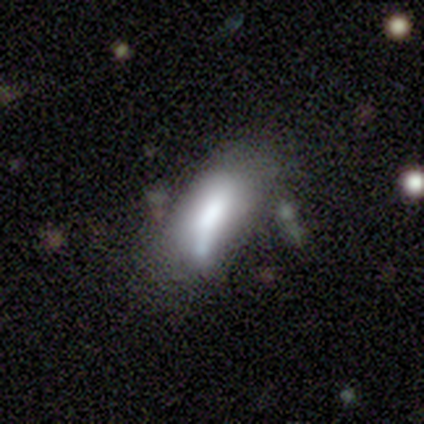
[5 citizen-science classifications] A smooth galaxy with no disk features (100%) that is in between round and cigar-shaped (100%).

Vote fractions:
- Smooth or featured? smooth: 100% / featured or disk: 0% / star or artifact: 0%
- How rounded? in between: 100% / round: 0% / cigar-shaped: 0%
- Merging? minor disturbance: 40% (tied) / major disturbance: 40% (tied) / none: 20% / merger: 0%